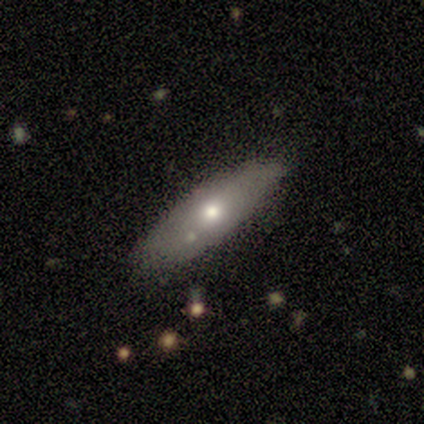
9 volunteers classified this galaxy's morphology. Volunteers were most divided on "smooth or featured": featured or disk: 44%, smooth: 33%, star or artifact: 22%. More confident: merging — none (100%); edge-on disk — yes (75%); edge-on bulge — rounded (67%).